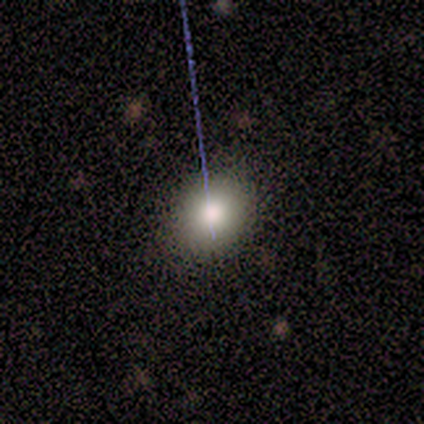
smooth 50%, featured or disk 40%, star or artifact 10%. Down the decision tree: how rounded — round (80%); merging — none (100%).